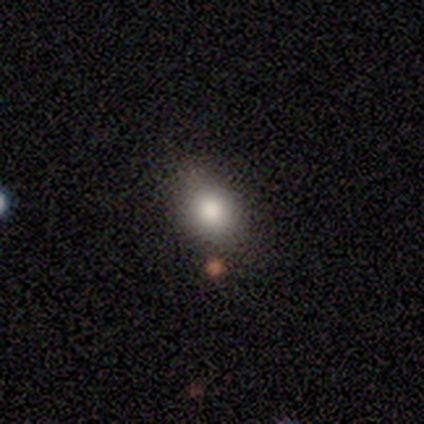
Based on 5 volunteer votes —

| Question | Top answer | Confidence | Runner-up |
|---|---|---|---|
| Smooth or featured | smooth | 80% | featured or disk (20%) |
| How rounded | round | 50% | tied: in between (50%) |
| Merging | none | 60% | minor disturbance (20%) |